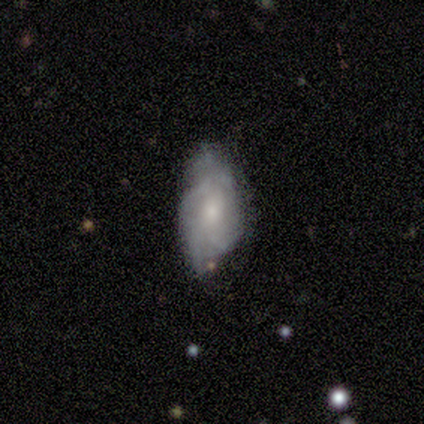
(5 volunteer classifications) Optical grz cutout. It shows a smooth galaxy with no disk features (80%) that is in between round and cigar-shaped (100%). Merging: minor disturbance (60%).